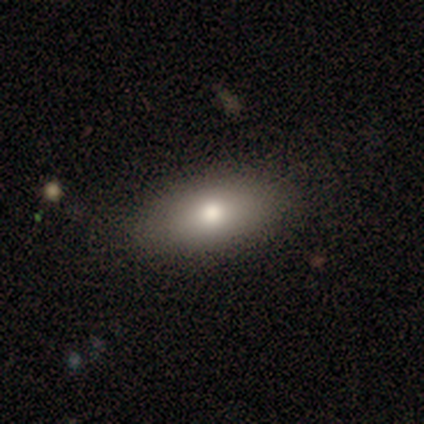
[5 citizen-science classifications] Overall: featured or disk (60%; smooth 40%). Edge-on disk: no (100%). Bar: no (100%). Spiral arms: no (100%). Bulge size: small (67%; moderate 33%). Merging: none (100%).